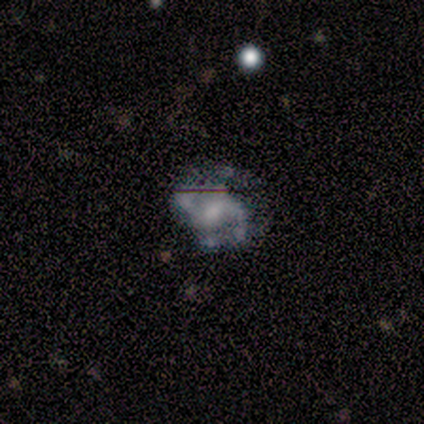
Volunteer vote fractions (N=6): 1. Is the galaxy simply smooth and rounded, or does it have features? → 100% featured or disk, 0% smooth, 0% star or artifact.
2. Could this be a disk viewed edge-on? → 100% no, 0% yes.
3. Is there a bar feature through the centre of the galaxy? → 67% weak, 17% strong, 17% no.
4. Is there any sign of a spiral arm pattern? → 100% yes, 0% no.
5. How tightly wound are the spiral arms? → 83% medium, 17% tight, 0% loose.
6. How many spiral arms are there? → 67% 2, 33% 3, 0% 1, 0% 4, 0% more than 4, 0% can't tell.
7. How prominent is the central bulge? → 67% moderate, 33% small, 0% dominant, 0% large, 0% none.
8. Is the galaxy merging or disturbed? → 50% none, 33% minor disturbance, 17% major disturbance, 0% merger.